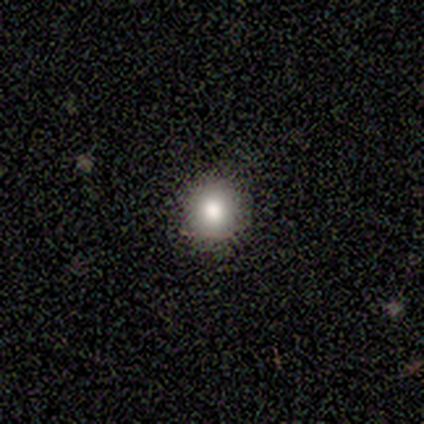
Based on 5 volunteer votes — A smooth galaxy with no disk features (100%) that is round (100%).

Vote fractions:
- Smooth or featured? smooth: 100% / featured or disk: 0% / star or artifact: 0%
- How rounded? round: 100% / in between: 0% / cigar-shaped: 0%
- Merging? none: 80% / minor disturbance: 20% / major disturbance: 0% / merger: 0%